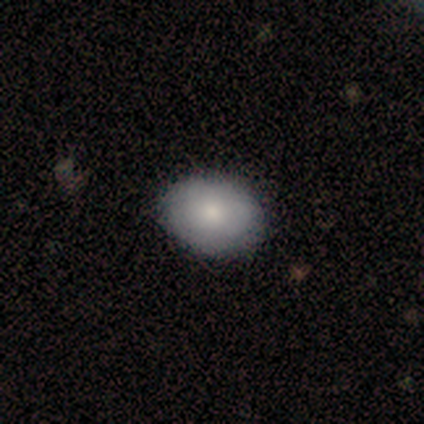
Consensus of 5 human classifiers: Smooth or featured: smooth — 80% (featured or disk — 20%)
How rounded: round — 75% (in between — 25%)
Merging: none — 100%